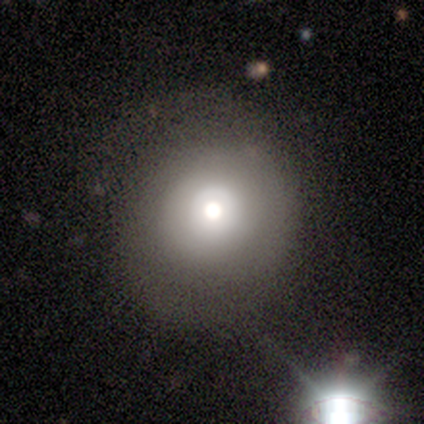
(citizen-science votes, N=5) smooth-or-featured: smooth: 60% | featured or disk: 20% | star or artifact: 20%
  how-rounded: round: 100% | in between: 0% | cigar-shaped: 0%
  merging: none: 75% | minor disturbance: 25% | major disturbance: 0% | merger: 0%